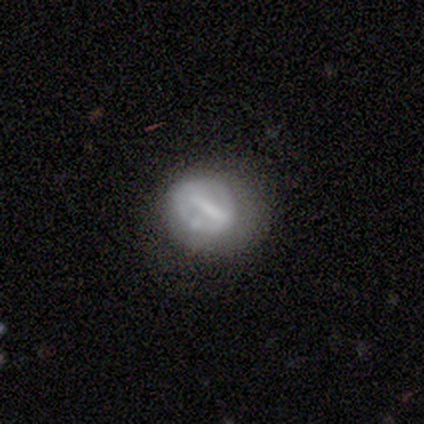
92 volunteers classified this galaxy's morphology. Q: Smooth or featured?
A: featured or disk (54%); runner-up: smooth (37%)
Q: Edge-on disk?
A: no (90%); runner-up: yes (10%)
Q: Bar?
A: strong (71%); runner-up: weak (20%)
Q: Spiral arms?
A: no (69%); runner-up: yes (31%)
Q: Bulge size?
A: none (60%); runner-up: moderate (20%)
Q: Merging?
A: none (69%); runner-up: major disturbance (14%)